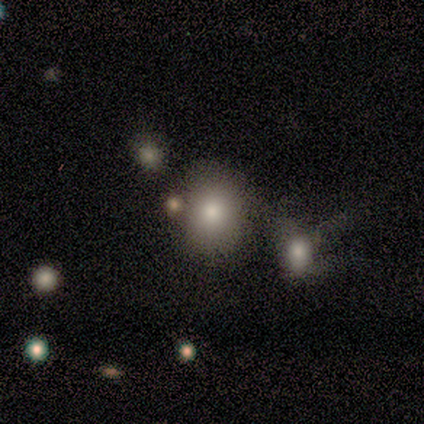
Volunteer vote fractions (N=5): smooth_or_featured: smooth (p=0.80) [alt: star or artifact p=0.20]
how_rounded: round (p=0.75) [alt: in between p=0.25]
merging: none (p=0.75) [alt: merger p=0.25]